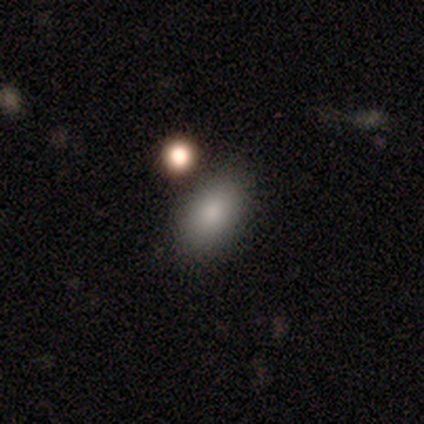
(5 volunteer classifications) A smooth galaxy with no disk features (100%) that is in between round and cigar-shaped (100%).

Vote fractions:
- Smooth or featured? smooth: 100% / featured or disk: 0% / star or artifact: 0%
- How rounded? in between: 100% / round: 0% / cigar-shaped: 0%
- Merging? none: 60% / minor disturbance: 40% / major disturbance: 0% / merger: 0%